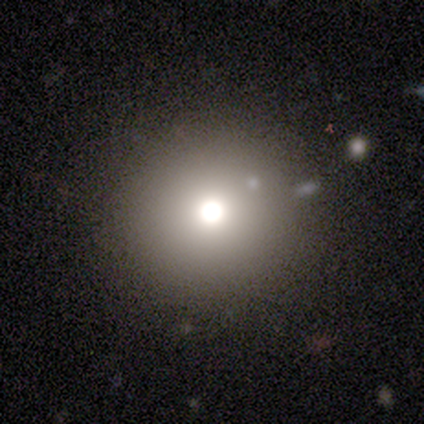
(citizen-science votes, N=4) Smooth or featured? 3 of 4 (75%) said smooth. How rounded? 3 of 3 (100%) said round. Merging? 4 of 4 (100%) said none.